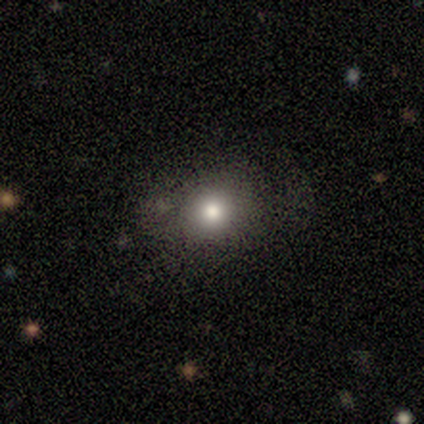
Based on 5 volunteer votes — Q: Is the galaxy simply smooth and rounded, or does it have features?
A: smooth — 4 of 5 (80%).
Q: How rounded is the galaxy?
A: round — 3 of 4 (75%).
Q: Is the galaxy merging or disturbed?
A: none — 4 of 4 (100%).